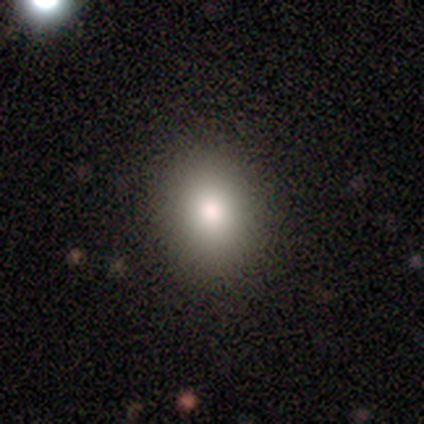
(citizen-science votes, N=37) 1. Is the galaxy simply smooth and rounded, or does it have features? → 81% smooth, 16% featured or disk, 3% star or artifact.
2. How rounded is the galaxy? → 60% round, 40% in between, 0% cigar-shaped.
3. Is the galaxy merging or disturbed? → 67% none, 3% minor disturbance, 0% major disturbance, 0% merger.